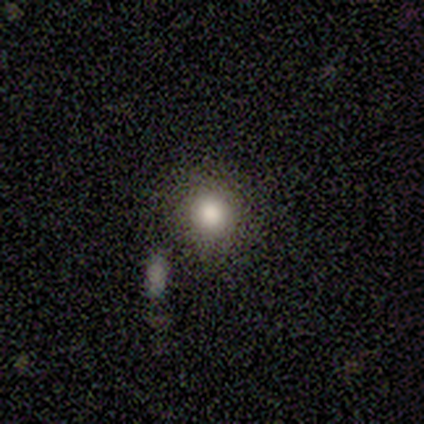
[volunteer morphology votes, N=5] Overall: smooth (100%). How rounded: round (100%). Merging: none (100%).